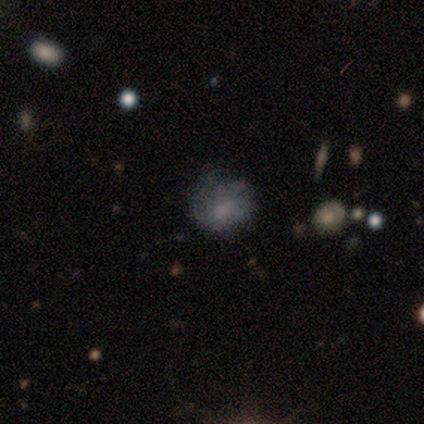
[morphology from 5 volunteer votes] Overall: smooth (80%). How rounded: round (75%). Merging: none (100%).